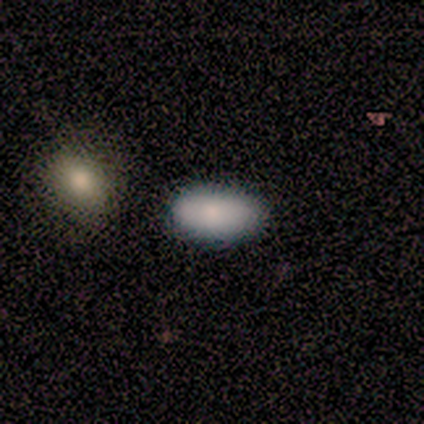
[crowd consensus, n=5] Morphology: type=smooth (100%); roundness=in between (80%); merging=minor disturbance (60%).